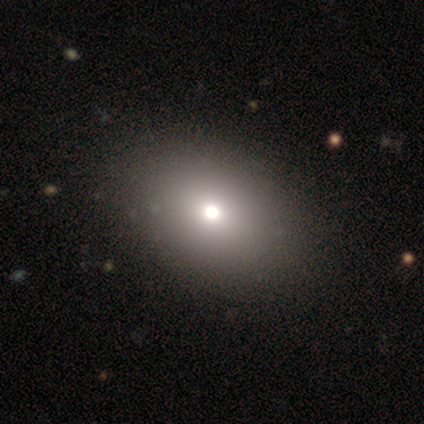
smooth 80%, star or artifact 20%, featured or disk 0%. Down the decision tree: how rounded — in between (75%); merging — none (50%, tied with minor disturbance).